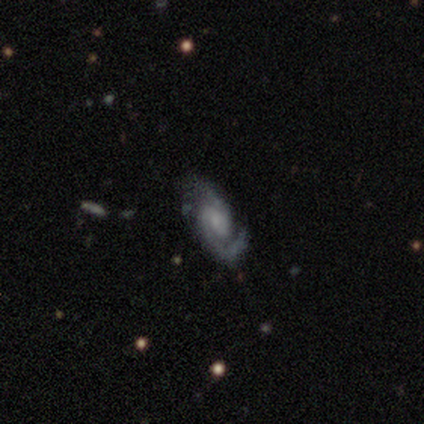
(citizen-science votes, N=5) Overall: featured or disk (100%). Edge-on disk: no (100%). Bar: no (60%; weak 40%). Spiral arms: yes (100%). Spiral arm count: 2 (100%). Spiral winding: tight (40%, tied with medium). Bulge size: moderate (40%, tied with small). Merging: none (100%).